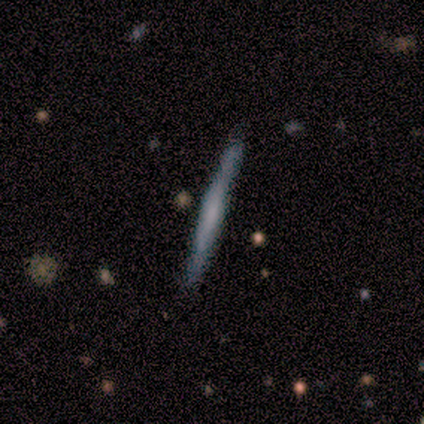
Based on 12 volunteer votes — Smooth or featured? 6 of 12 (50%) said smooth. How rounded? 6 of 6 (100%) said cigar-shaped. Merging? 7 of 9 (78%) said none.